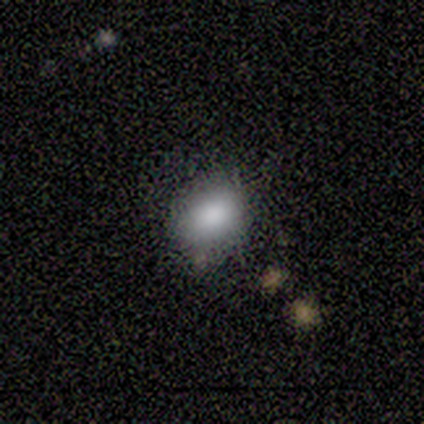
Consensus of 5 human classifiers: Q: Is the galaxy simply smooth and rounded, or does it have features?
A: smooth — 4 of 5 (80%).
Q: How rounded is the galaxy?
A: in between — 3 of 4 (75%).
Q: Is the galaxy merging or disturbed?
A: none — 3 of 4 (75%).